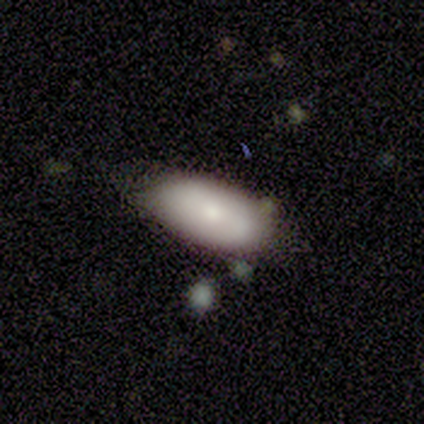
smooth 100%, featured or disk 0%, star or artifact 0%. Down the decision tree: how rounded — in between (50%, tied with cigar-shaped); merging — none (100%).